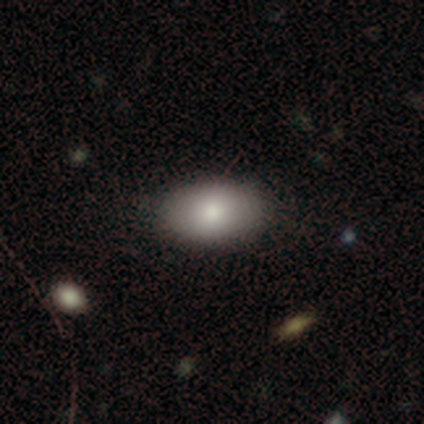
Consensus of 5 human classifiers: A smooth galaxy with no disk features (100%) that is in between round and cigar-shaped (100%).

Vote fractions:
- Smooth or featured? smooth: 100% / featured or disk: 0% / star or artifact: 0%
- How rounded? in between: 100% / round: 0% / cigar-shaped: 0%
- Merging? none: 60% / minor disturbance: 20% / merger: 20% / major disturbance: 0%